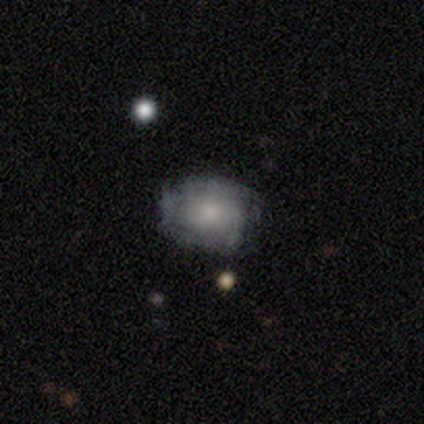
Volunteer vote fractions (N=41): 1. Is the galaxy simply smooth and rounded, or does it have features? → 49% featured or disk, 39% smooth, 12% star or artifact.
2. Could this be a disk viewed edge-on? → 95% no, 5% yes.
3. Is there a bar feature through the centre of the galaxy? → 89% no, 11% weak, 0% strong.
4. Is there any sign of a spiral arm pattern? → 74% yes, 26% no.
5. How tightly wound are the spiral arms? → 50% tight, 36% medium, 14% loose.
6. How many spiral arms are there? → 43% can't tell, 21% 2, 14% 3, 14% more than 4, 7% 4, 0% 1.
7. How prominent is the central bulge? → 47% moderate, 26% small, 16% none, 11% large, 0% dominant.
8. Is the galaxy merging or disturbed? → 61% none, 28% minor disturbance, 8% major disturbance, 3% merger.